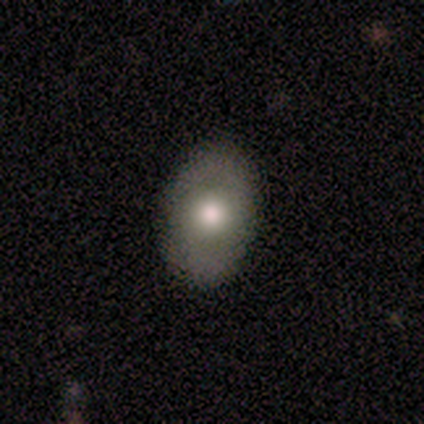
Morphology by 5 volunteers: Smooth or featured? featured or disk (60%)
Edge-on disk? no (100%)
Bar? no (67%)
Spiral arms? no (100%)
Bulge size? large (100%)
Merging? none (100%)